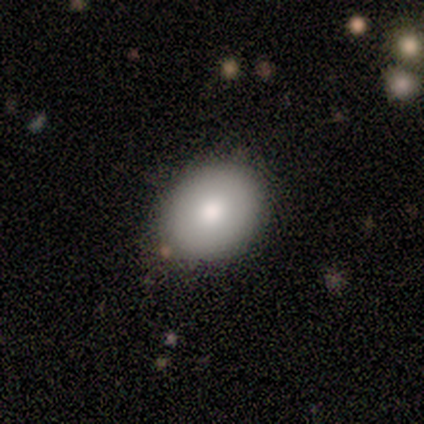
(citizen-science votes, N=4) Overall: smooth (50%; featured or disk 25%). How rounded: in between (100%). Merging: none (67%; minor disturbance 33%).